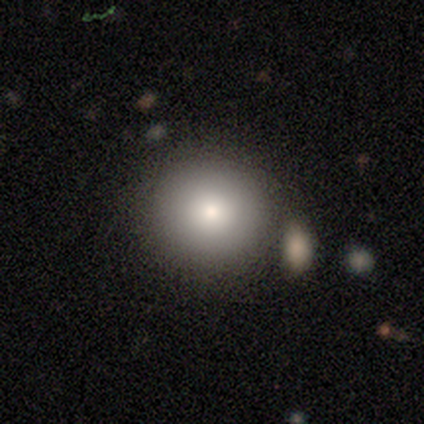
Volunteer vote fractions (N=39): Smooth or featured: smooth — 85% (featured or disk — 8%)
How rounded: round — 100%
Merging: none — 78% (merger — 14%)